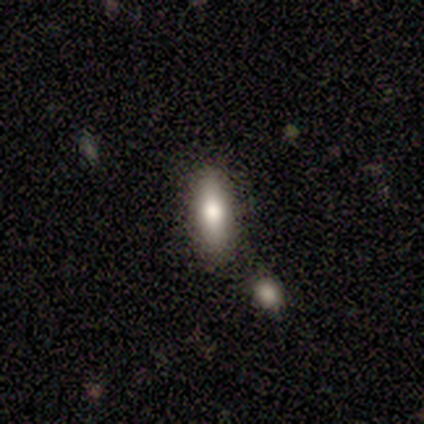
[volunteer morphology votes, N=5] This appears to be a smooth galaxy with no disk features (40%, tied with featured or disk) that is in between round and cigar-shaped (100%). Merging: none (75%).